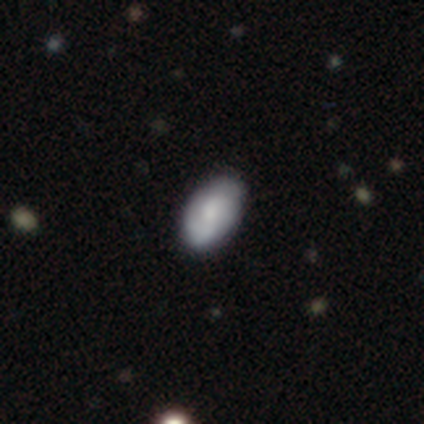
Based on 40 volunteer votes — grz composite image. It shows a smooth galaxy with no disk features (75%) that is in between round and cigar-shaped (87%). Merging: none (76%).